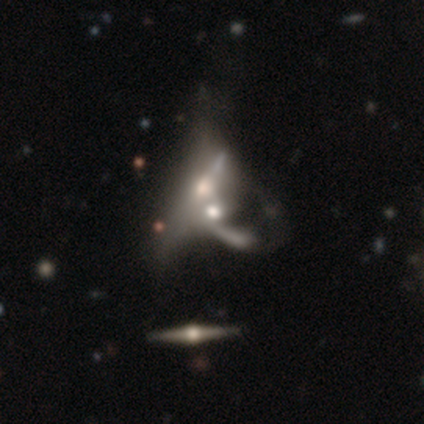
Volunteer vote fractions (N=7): Smooth or featured? featured or disk (71%)
Edge-on disk? no (100%)
Bar? no (80%)
Spiral arms? no (60%)
Bulge size? moderate (40%, tied with small)
Merging? merger (71%)